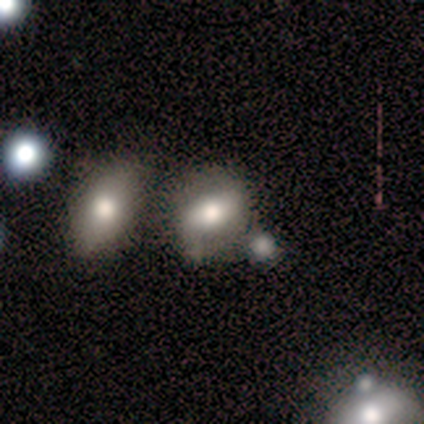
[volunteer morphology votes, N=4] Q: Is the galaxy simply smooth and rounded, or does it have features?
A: smooth — 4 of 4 (100%).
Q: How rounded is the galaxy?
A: in between — 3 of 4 (75%).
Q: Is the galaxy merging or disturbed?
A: none — 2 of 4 (50%, tied with minor disturbance).